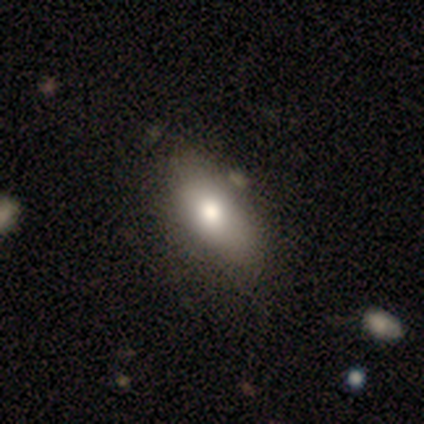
Overall: smooth (80%). How rounded: in between (75%). Merging: none (80%).